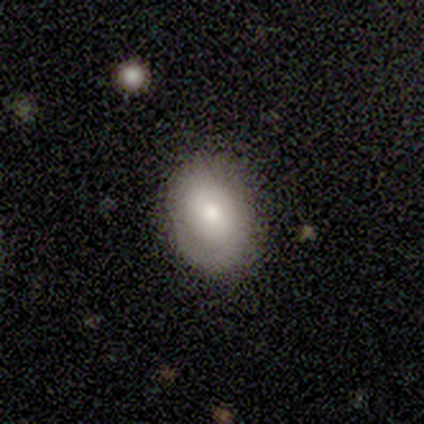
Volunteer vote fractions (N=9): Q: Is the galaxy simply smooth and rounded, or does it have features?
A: smooth — 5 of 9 (56%).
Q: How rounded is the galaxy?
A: in between — 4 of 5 (80%).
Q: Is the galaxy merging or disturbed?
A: none — 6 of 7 (86%).